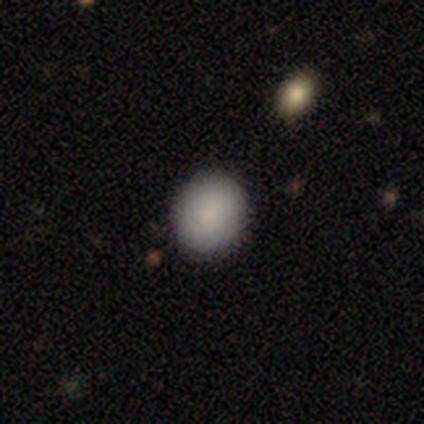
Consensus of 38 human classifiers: smooth_or_featured: smooth (p=0.87) [alt: featured or disk p=0.08]
how_rounded: round (p=0.73) [alt: in between p=0.24]
merging: none (p=0.86) [alt: minor disturbance p=0.14]